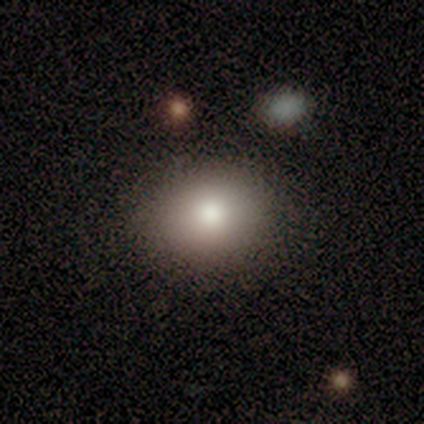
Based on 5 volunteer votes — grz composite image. It shows a smooth galaxy with no disk features (60%) that is round (67%). Merging: none (100%).